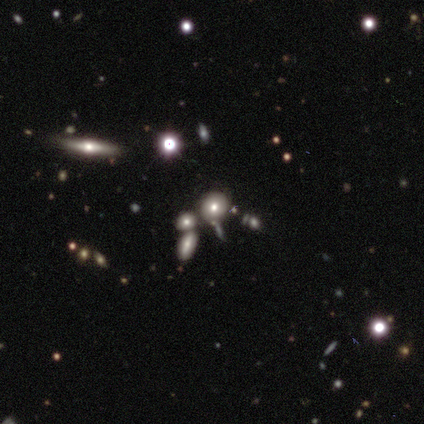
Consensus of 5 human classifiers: Volunteers were most divided on "smooth or featured": smooth: 60%, featured or disk: 20%, star or artifact: 20%. More confident: how rounded — round (100%); merging — none (75%).